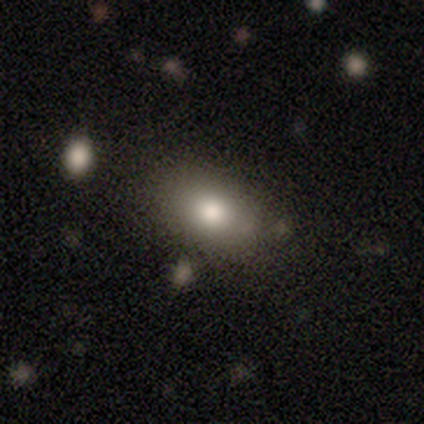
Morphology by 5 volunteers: smooth 80%, featured or disk 20%, star or artifact 0%. Down the decision tree: how rounded — in between (75%); merging — none (60%).